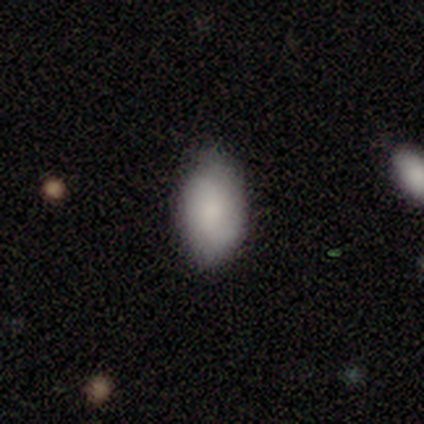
This appears to be a smooth galaxy with no disk features (85%) that is in between round and cigar-shaped (88%). Merging: none (82%).